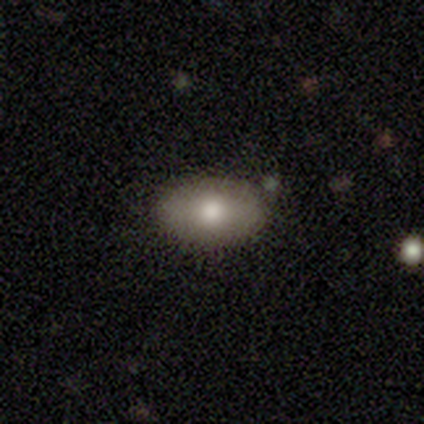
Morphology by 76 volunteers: Smooth or featured? smooth (74%)
How rounded? in between (98%)
Merging? none (52%)